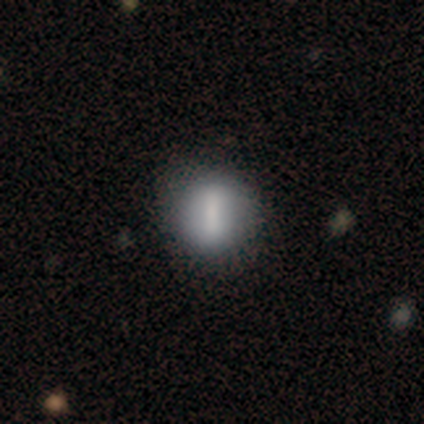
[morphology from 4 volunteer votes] type=smooth (75%); roundness=in between (67%); merging=none (75%).